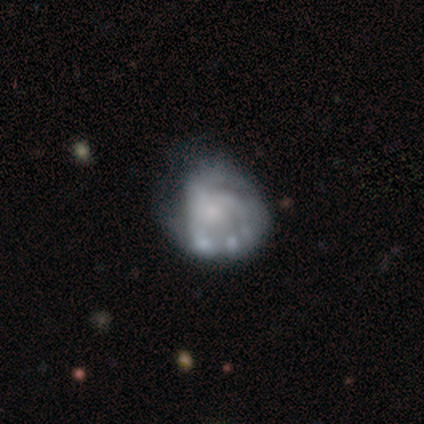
This appears to be a featured or disk galaxy (85%) with no bar (97%), tight (41%) spiral arms (52%) and a small central bulge (42%). Merging: major disturbance (18%).